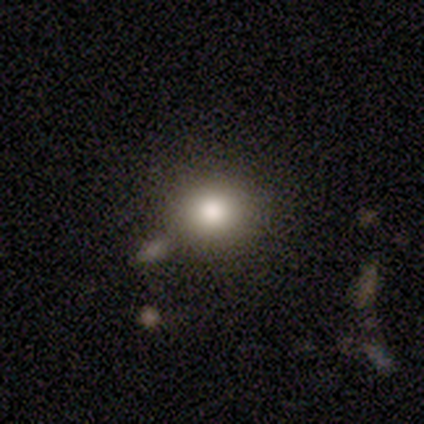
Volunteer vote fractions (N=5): smooth 80%, featured or disk 20%, star or artifact 0%. Down the decision tree: how rounded — round (100%); merging — none (80%).